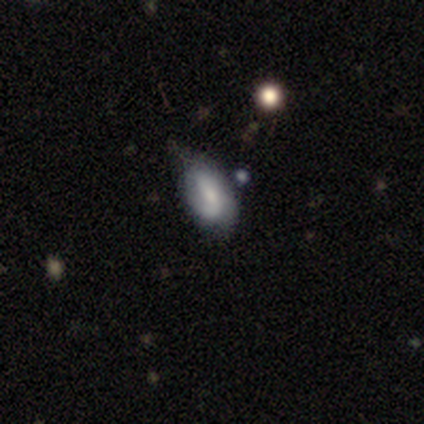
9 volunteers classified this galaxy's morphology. smooth-or-featured: smooth: 67% | featured or disk: 33% | star or artifact: 0%
  how-rounded: in between: 83% | cigar-shaped: 17% | round: 0%
  merging: minor disturbance: 67% | none: 33% | major disturbance: 0% | merger: 0%